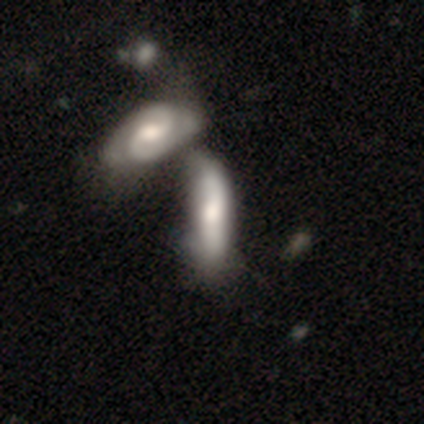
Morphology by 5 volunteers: smooth-or-featured: smooth: 80% | featured or disk: 20% | star or artifact: 0%
  how-rounded: in between: 75% | cigar-shaped: 25% | round: 0%
  merging: merger: 60% | none: 40% | minor disturbance: 0% | major disturbance: 0%